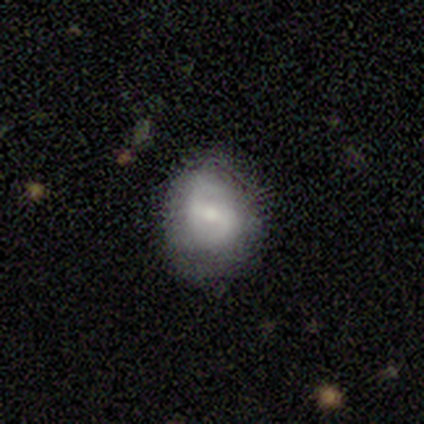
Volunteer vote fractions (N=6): Smooth or featured: smooth — 50% (tied with featured or disk — 50%)
How rounded: round — 67% (in between — 33%)
Merging: none — 83% (minor disturbance — 17%)